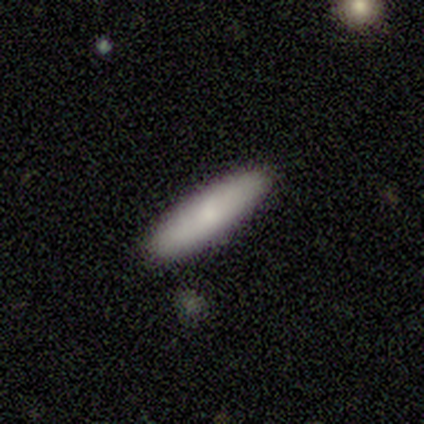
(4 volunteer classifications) This appears to be a smooth galaxy with no disk features (100%) that is cigar-shaped (100%). Merging: none (50%, tied with minor disturbance).